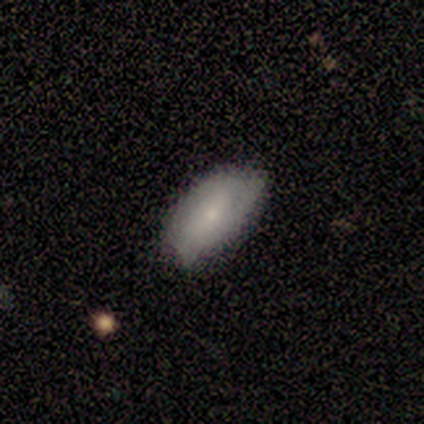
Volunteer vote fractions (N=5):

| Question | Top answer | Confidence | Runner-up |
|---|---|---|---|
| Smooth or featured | smooth | 80% | featured or disk (20%) |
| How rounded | in between | 100% | — |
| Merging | none | 80% | minor disturbance (20%) |